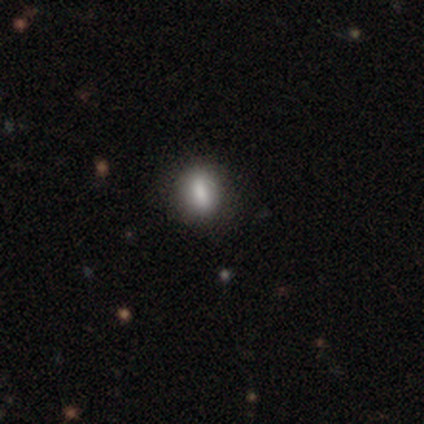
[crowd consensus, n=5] A smooth galaxy with no disk features (100%) that is in between round and cigar-shaped (60%). Merging: none (80%).